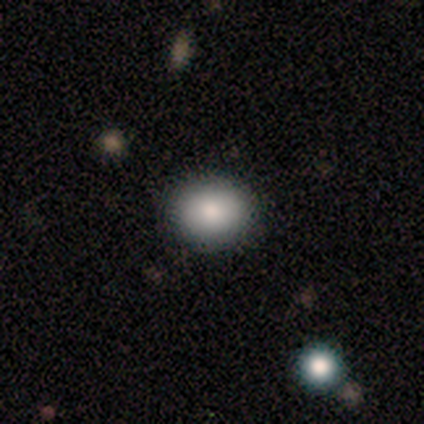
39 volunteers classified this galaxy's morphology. smooth-or-featured: smooth: 85% | featured or disk: 13% | star or artifact: 3%
  how-rounded: round: 82% | in between: 18% | cigar-shaped: 0%
  merging: none: 92% | minor disturbance: 5% | merger: 3% | major disturbance: 0%